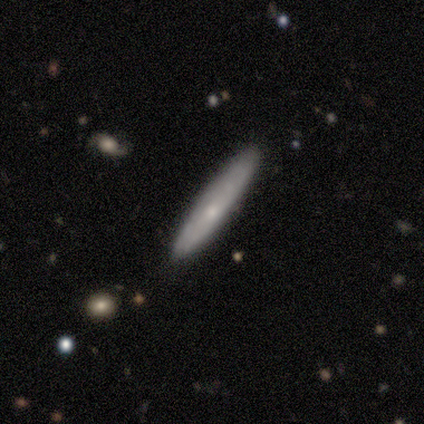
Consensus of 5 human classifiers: Overall: smooth (80%). How rounded: cigar-shaped (100%). Merging: none (80%).